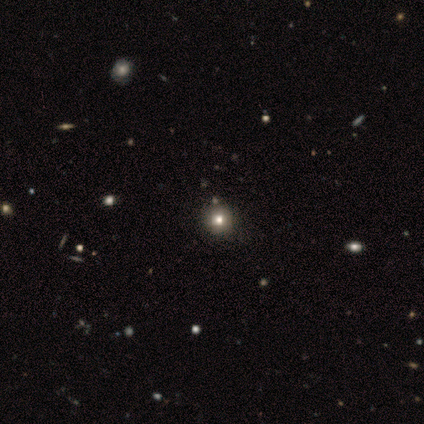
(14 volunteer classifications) smooth 64%, star or artifact 29%, featured or disk 7%. Down the decision tree: how rounded — round (89%); merging — none (100%).